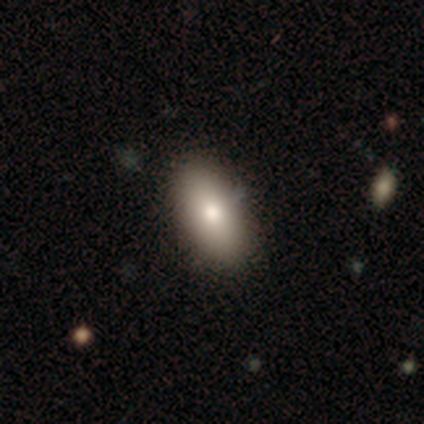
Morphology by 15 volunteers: Smooth or featured? smooth (93%)
How rounded? in between (100%)
Merging? none (80%)